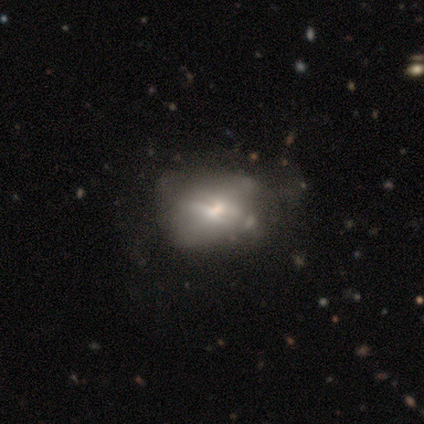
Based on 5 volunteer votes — This is likely a smooth galaxy (60%). How rounded: likely in between (67%). Merging: marginally minor disturbance (40%, tied with major disturbance).